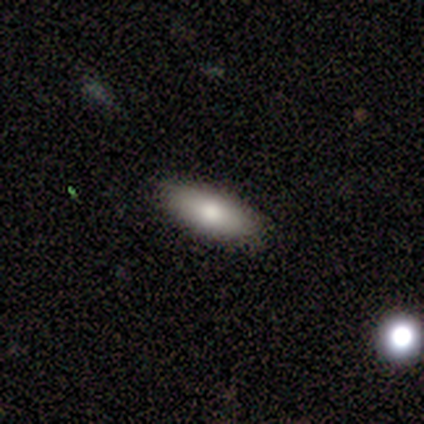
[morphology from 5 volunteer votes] A smooth galaxy with no disk features (80%) that is in between round and cigar-shaped (100%). Merging: none (100%).